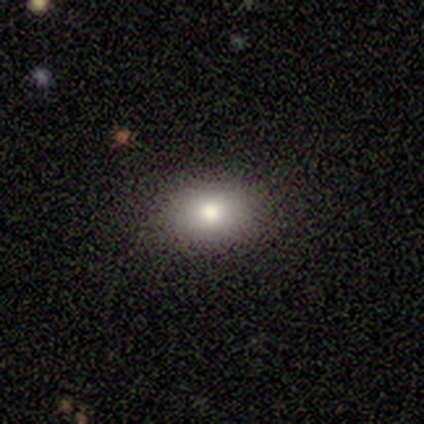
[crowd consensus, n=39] Overall: smooth (67%). How rounded: in between (77%). Merging: none (94%).